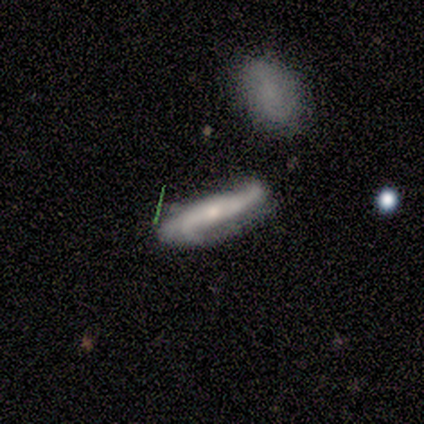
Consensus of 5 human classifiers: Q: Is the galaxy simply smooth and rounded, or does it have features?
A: featured or disk — 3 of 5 (60%).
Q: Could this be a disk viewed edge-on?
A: yes — 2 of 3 (67%).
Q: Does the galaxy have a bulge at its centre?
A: none — 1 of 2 (50%, tied with rounded).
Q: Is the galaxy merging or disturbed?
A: none — 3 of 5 (60%).